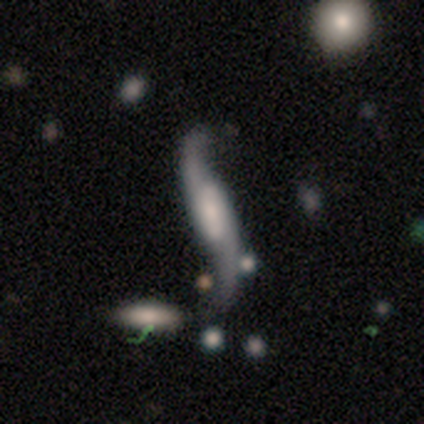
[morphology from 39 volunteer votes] A featured or disk galaxy (85%) with no bar (43%), 2 (100%) loose (100%) spiral arms (96%) and a moderate central bulge (30%). Merging: none (49%).